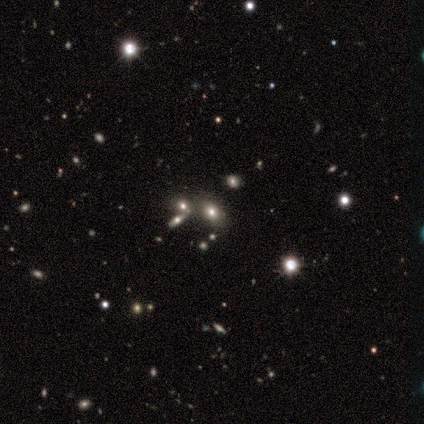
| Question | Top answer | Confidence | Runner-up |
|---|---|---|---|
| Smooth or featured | smooth | 53% | star or artifact (32%) |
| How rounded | in between | 78% | round (22%) |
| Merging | none | 70% | merger (22%) |